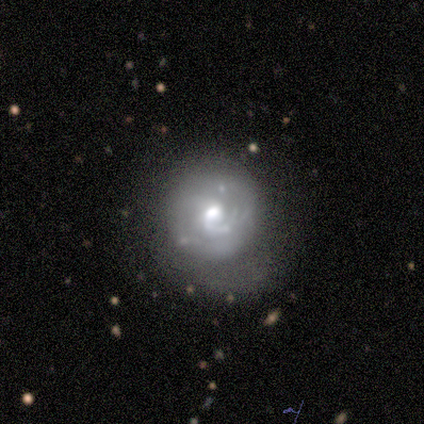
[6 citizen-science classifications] smooth_or_featured: featured or disk (p=1.00)
disk_edge_on: no (p=0.83) [alt: yes p=0.17]
bar: no (p=0.60) [alt: weak p=0.40]
has_spiral_arms: yes (p=0.80) [alt: no p=0.20]
spiral_winding: tight (p=0.75) [alt: medium p=0.25]
spiral_arm_count: 1 (p=0.50) [alt: 2 p=0.25]
bulge_size: moderate (p=1.00)
merging: none (p=0.50) [alt: major disturbance p=0.33]